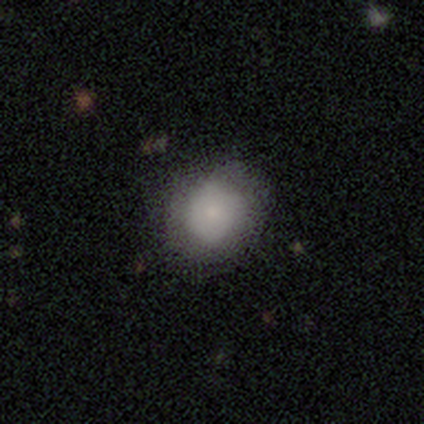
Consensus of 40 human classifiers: Morphology: type=smooth (82%); roundness=round (88%); merging=none (69%).